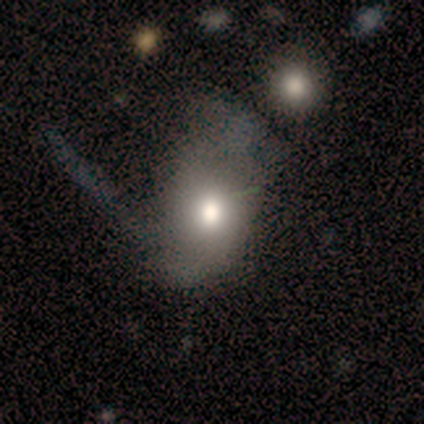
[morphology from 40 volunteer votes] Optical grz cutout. It shows a smooth galaxy with no disk features (70%) that is in between round and cigar-shaped (75%). Merging: none (26%).